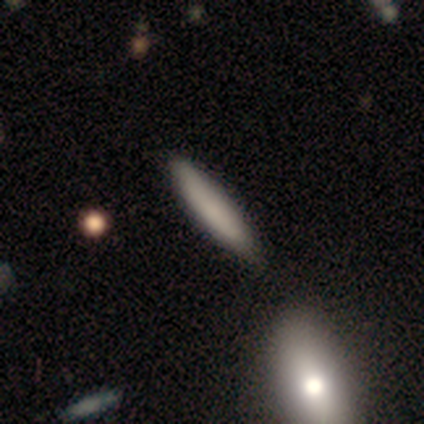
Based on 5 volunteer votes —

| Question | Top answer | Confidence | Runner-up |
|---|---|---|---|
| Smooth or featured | smooth | 100% | — |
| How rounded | cigar-shaped | 100% | — |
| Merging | none | 80% | minor disturbance (20%) |